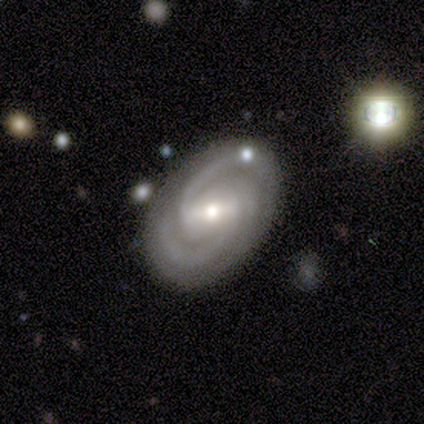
Overall: featured or disk (80%). Edge-on disk: no (100%). Bar: weak (75%). Spiral arms: yes (100%). Spiral arm count: 3 (100%). Spiral winding: tight (100%). Bulge size: small (75%). Merging: none (80%).